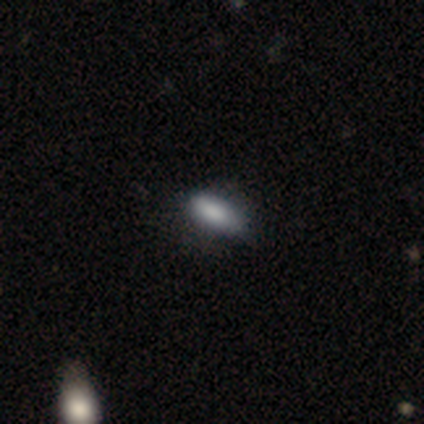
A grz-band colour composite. It shows a smooth galaxy with no disk features (80%) that is in between round and cigar-shaped (100%). Merging: none (50%).